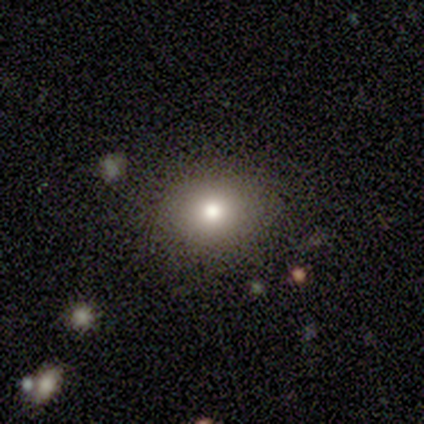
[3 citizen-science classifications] Smooth or featured? 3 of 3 (100%) said smooth. How rounded? 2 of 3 (67%) said in between. Merging? 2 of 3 (67%) said none.